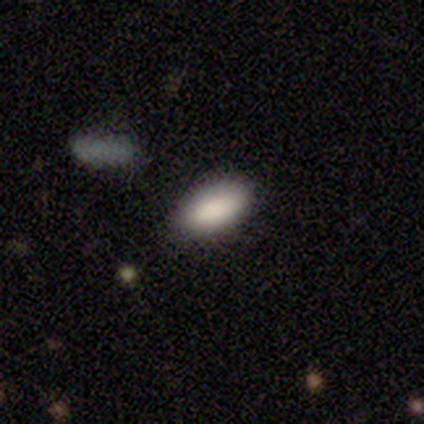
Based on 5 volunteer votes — Volunteers were most divided on "merging": none: 80%, minor disturbance: 20%, major disturbance: 0%, merger: 0%. More confident: smooth or featured — smooth (100%); how rounded — in between (100%).